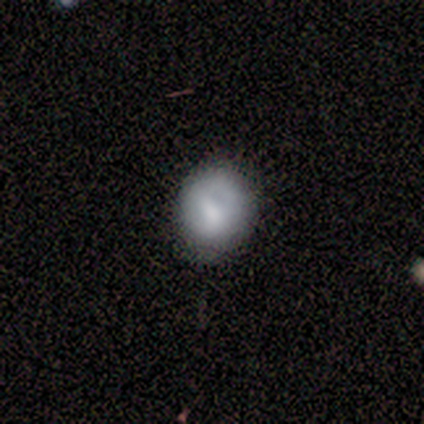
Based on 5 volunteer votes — A smooth galaxy with no disk features (80%) that is round (75%).

Vote fractions:
- Smooth or featured? smooth: 80% / star or artifact: 20% / featured or disk: 0%
- How rounded? round: 75% / in between: 25% / cigar-shaped: 0%
- Merging? minor disturbance: 50% / none: 25% / major disturbance: 25% / merger: 0%